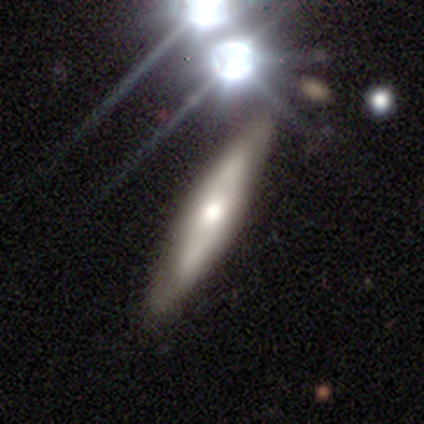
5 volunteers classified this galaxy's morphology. This appears to be a smooth galaxy with no disk features (60%) that is cigar-shaped (100%). Merging: none (100%).